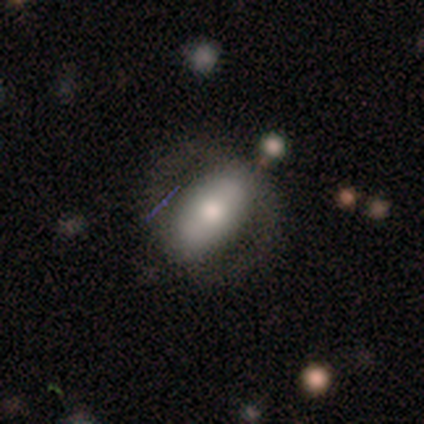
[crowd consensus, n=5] Smooth or featured: smooth — 60% (featured or disk — 40%)
How rounded: in between — 100%
Merging: none — 80% (minor disturbance — 20%)